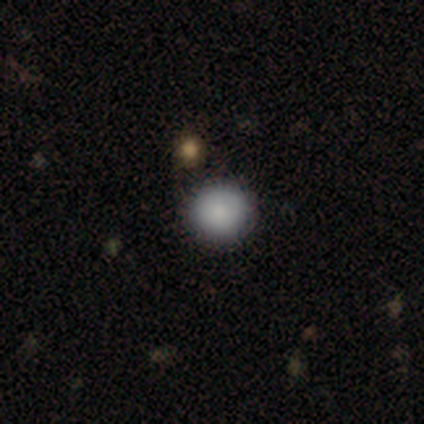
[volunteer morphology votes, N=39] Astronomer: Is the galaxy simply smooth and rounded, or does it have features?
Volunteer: smooth — 92%.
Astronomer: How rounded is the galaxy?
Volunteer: round — 100%.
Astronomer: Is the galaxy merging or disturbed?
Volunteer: none — 86%.